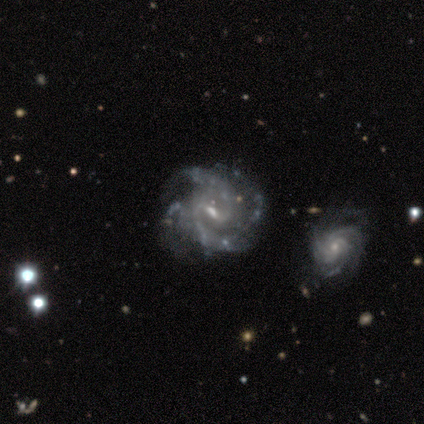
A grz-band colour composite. It shows a featured or disk galaxy (100%) with a weak bar (80%), 2 (60%) medium (80%) spiral arms (100%) and a small central bulge (80%). Merging: none (40%, tied with merger).